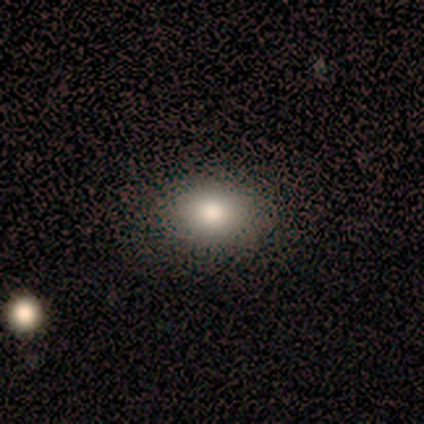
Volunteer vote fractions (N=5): Volunteers were most divided on "how rounded" (2-way tie): round: 50%, in between: 50%, cigar-shaped: 0%. More confident: merging — none (100%); smooth or featured — smooth (80%).